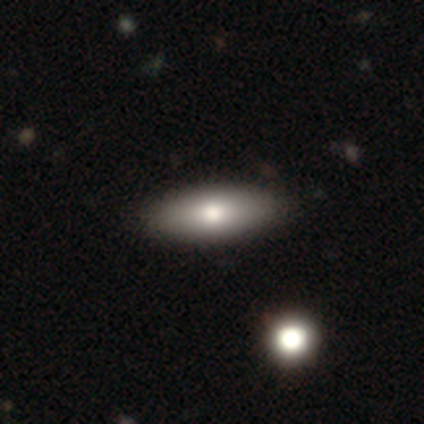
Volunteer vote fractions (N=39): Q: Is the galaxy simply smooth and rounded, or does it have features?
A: smooth — 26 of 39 (67%).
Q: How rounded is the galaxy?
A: in between — 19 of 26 (73%).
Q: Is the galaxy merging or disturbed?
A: none — 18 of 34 (53%).